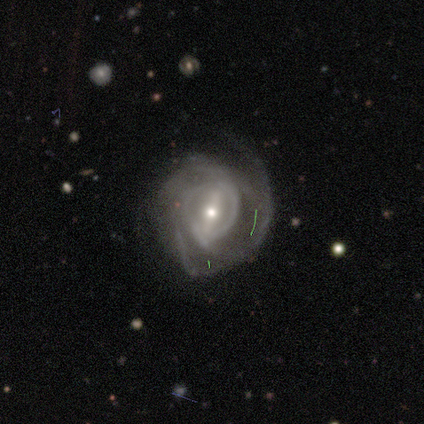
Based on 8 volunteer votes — A featured or disk galaxy (100%) with a strong bar (50%, tied with weak), 2 (33%, tied with 3) medium (50%) spiral arms (100%) and a small central bulge (83%).

Vote fractions:
- Smooth or featured? featured or disk: 100% / smooth: 0% / star or artifact: 0%
- Edge-on disk? no: 75% / yes: 25%
- Bar? strong: 50% (tied) / weak: 50% (tied) / no: 0%
- Spiral arms? yes: 100% / no: 0%
- Spiral winding? medium: 50% / tight: 33% / loose: 17%
- Spiral arm count? 2: 33% (tied) / 3: 33% (tied) / 4: 17% / can't tell: 17% / 1: 0% / more than 4: 0%
- Bulge size? small: 83% / moderate: 17% / dominant: 0% / large: 0% / none: 0%
- Merging? none: 62% / major disturbance: 25% / minor disturbance: 12% / merger: 0%